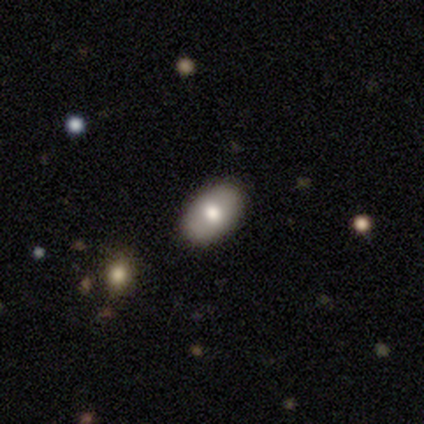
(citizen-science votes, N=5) Overall: smooth (80%). How rounded: in between (100%). Merging: none (100%).